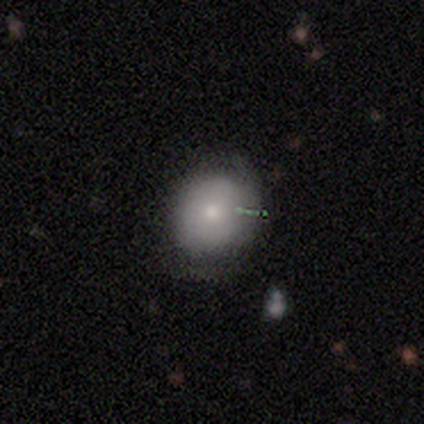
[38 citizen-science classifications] This appears to be a smooth galaxy with no disk features (68%) that is round (73%). Merging: none (77%).